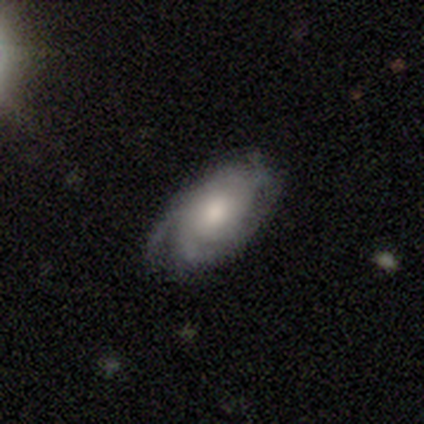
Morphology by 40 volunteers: Smooth or featured?
  - featured or disk: 78% *
  - smooth: 22%
  - star or artifact: 0%
Edge-on disk?
  - no: 97% *
  - yes: 3%
Bar?
  - no: 87% *
  - weak: 13%
  - strong: 0%
Spiral arms?
  - yes: 93% *
  - no: 7%
Spiral winding?
  - tight: 50% *
  - medium: 39%
  - loose: 11%
Spiral arm count?
  - can't tell: 39% *
  - 2: 36%
  - 3: 14%
  - 1: 7%
  - 4: 4%
  - more than 4: 0%
Bulge size?
  - moderate: 67% *
  - large: 13%
  - small: 13%
  - dominant: 3%
  - none: 3%
Merging?
  - none: 45% *
  - minor disturbance: 18%
  - major disturbance: 5%
  - merger: 2%